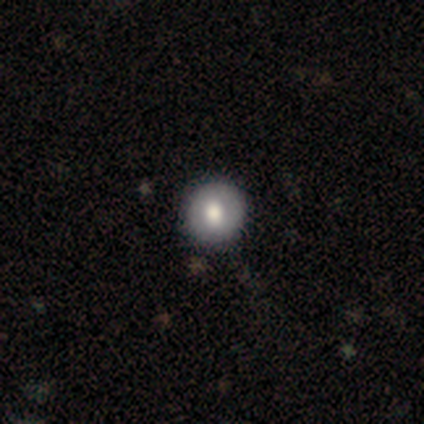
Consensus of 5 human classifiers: Overall: smooth (80%). How rounded: round (100%). Merging: none (100%).